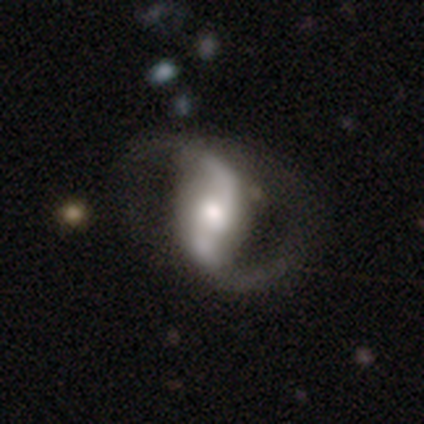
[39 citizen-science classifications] This is clearly a featured or disk galaxy (92%). It is clearly not viewed edge-on (100%). Bar: marginally weak (39%). Spiral arm pattern: clearly yes (100%). Spiral arm count: clearly 2 (94%). Spiral winding: likely loose (72%). Central bulge: possibly moderate (50%). Merging: marginally none (45%).